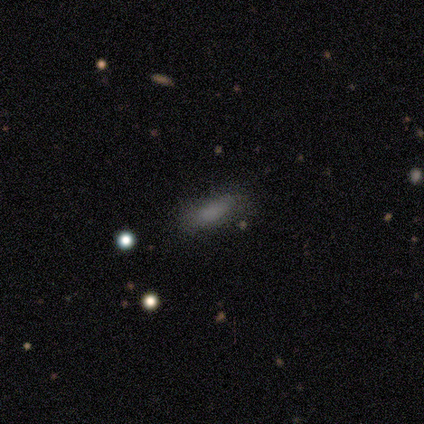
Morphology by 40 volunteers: Overall: smooth (80%). How rounded: in between (72%). Merging: none (63%).